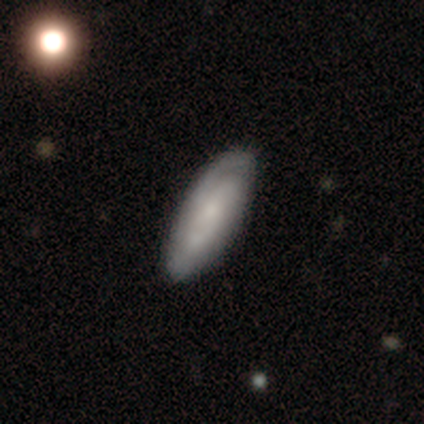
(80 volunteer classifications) A featured or disk galaxy (56%) with no bar (76%), tight (58%) spiral arms (88%) and a small central bulge (59%). Merging: none (37%).